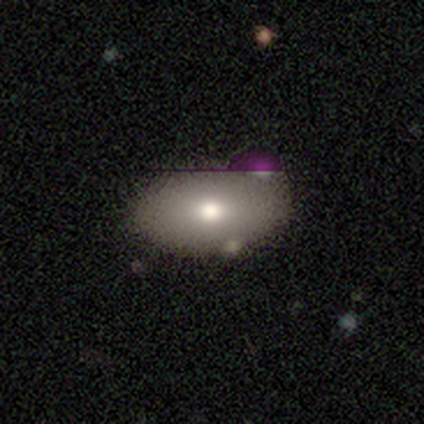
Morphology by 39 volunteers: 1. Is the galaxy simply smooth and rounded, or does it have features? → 62% smooth, 23% featured or disk, 15% star or artifact.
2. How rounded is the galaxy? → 88% in between, 8% round, 4% cigar-shaped.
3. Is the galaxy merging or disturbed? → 61% none, 21% minor disturbance, 9% major disturbance, 9% merger.